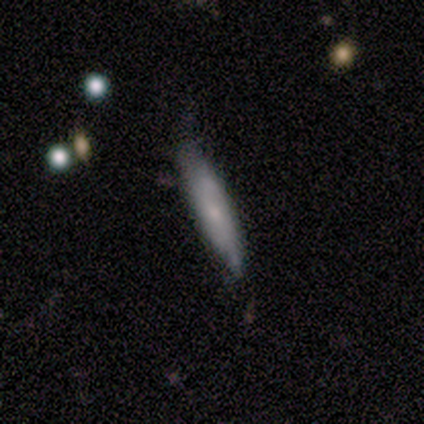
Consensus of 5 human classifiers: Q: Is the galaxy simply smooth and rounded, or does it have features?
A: smooth — 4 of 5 (80%).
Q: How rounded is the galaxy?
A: cigar-shaped — 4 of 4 (100%).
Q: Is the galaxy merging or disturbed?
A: none — 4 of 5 (80%).